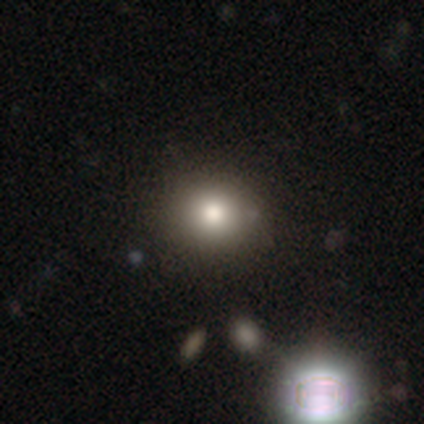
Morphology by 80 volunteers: Overall: smooth (85%). How rounded: round (76%). Merging: none (42%; merger 10%).